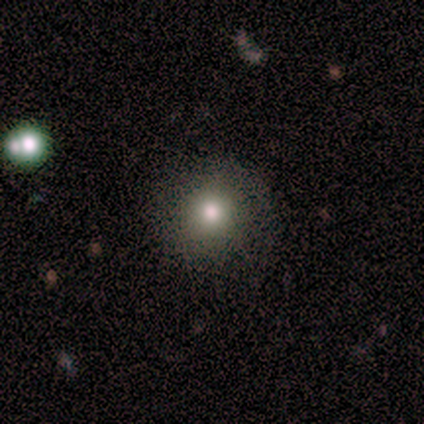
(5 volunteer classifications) This appears to be a smooth galaxy with no disk features (40%, tied with star or artifact) that is round (100%). Merging: none (100%).